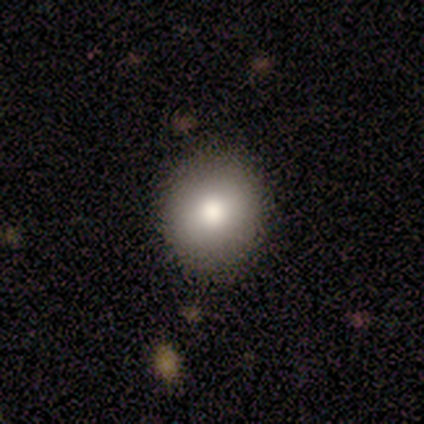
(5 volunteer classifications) This appears to be a smooth galaxy with no disk features (60%) that is round (100%). Merging: none (80%).